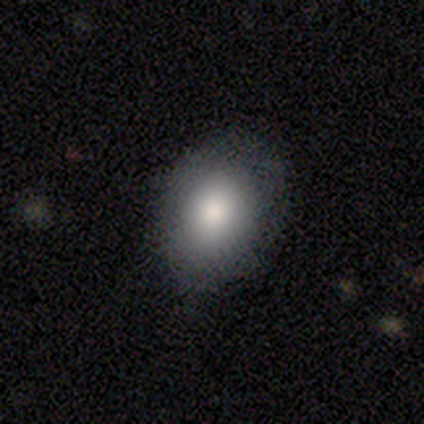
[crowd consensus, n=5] Smooth or featured? smooth (100%)
How rounded? in between (100%)
Merging? none (80%)